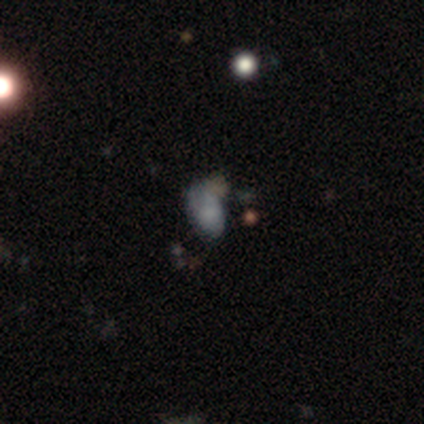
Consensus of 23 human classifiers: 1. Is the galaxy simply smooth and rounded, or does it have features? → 61% smooth, 26% star or artifact, 13% featured or disk.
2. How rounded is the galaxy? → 93% in between, 7% round, 0% cigar-shaped.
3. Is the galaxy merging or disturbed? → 41% minor disturbance, 29% none, 24% major disturbance, 6% merger.